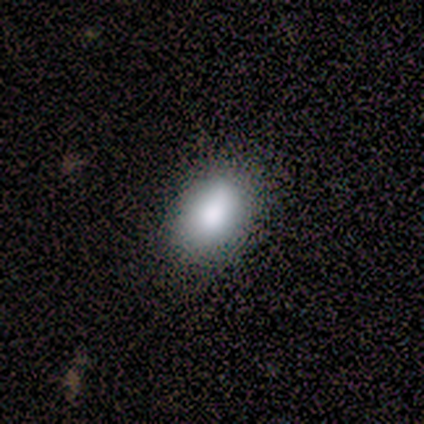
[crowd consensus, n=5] This appears to be a smooth galaxy with no disk features (100%) that is in between round and cigar-shaped (60%). Merging: minor disturbance (60%).